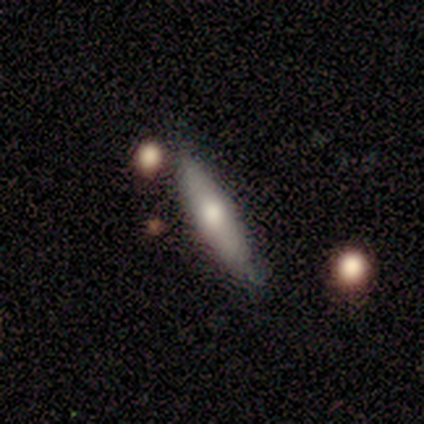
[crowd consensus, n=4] Smooth or featured?
  - smooth: 50% * (tied)
  - featured or disk: 50% * (tied)
  - star or artifact: 0%
How rounded?
  - in between: 50% * (tied)
  - cigar-shaped: 50% * (tied)
  - round: 0%
Merging?
  - none: 50% *
  - minor disturbance: 25%
  - major disturbance: 25%
  - merger: 0%